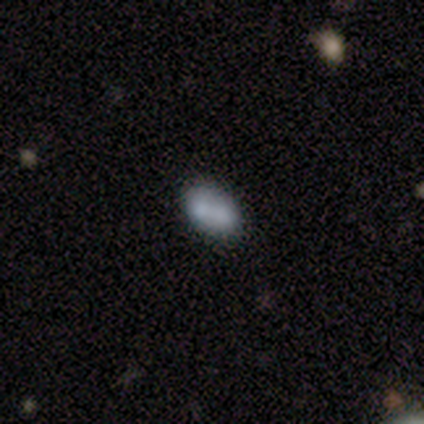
A smooth galaxy with no disk features (57%) that is in between round and cigar-shaped (75%). Merging: merger (71%).